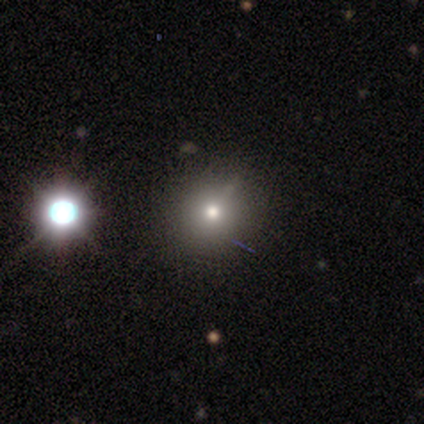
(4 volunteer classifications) A smooth galaxy with no disk features (75%) that is round (100%).

Vote fractions:
- Smooth or featured? smooth: 75% / star or artifact: 25% / featured or disk: 0%
- How rounded? round: 100% / in between: 0% / cigar-shaped: 0%
- Merging? none: 100% / minor disturbance: 0% / major disturbance: 0% / merger: 0%